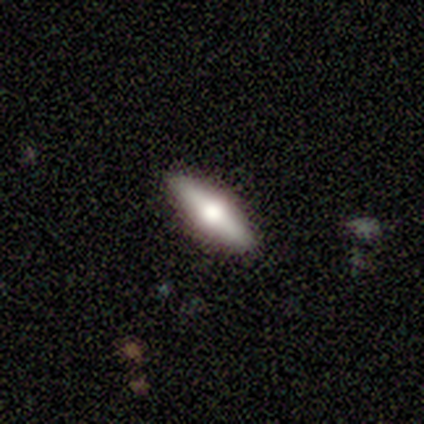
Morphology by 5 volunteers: A featured or disk galaxy (60%) viewed edge-on (100%) with a rounded central bulge (100%).

Vote fractions:
- Smooth or featured? featured or disk: 60% / smooth: 20% / star or artifact: 20%
- Edge-on disk? yes: 100% / no: 0%
- Edge-on bulge? rounded: 100% / boxy: 0% / none: 0%
- Merging? none: 100% / minor disturbance: 0% / major disturbance: 0% / merger: 0%